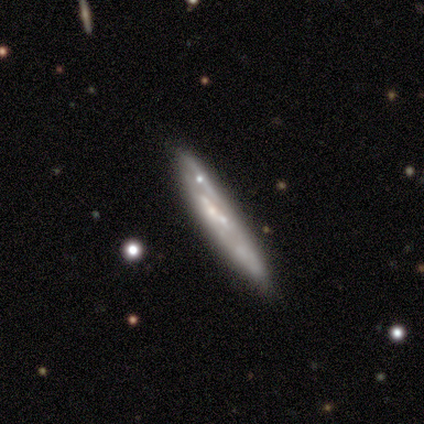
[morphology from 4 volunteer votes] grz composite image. It shows a featured or disk galaxy (75%) viewed edge-on (100%) with no central bulge (100%). Merging: none (75%).